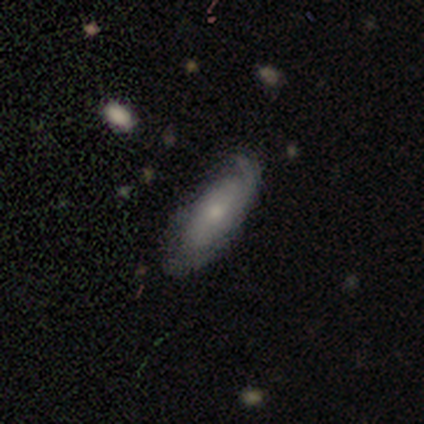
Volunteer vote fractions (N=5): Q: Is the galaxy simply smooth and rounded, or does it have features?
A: featured or disk — 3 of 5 (60%).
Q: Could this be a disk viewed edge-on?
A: no — 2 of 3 (67%).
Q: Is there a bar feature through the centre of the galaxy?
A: weak — 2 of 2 (100%).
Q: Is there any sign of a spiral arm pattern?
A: yes — 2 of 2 (100%).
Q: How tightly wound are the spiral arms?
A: tight — 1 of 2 (50%, tied with loose).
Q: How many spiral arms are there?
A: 2 — 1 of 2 (50%, tied with can't tell).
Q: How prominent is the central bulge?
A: moderate — 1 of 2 (50%, tied with small).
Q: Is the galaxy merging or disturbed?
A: none — 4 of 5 (80%).